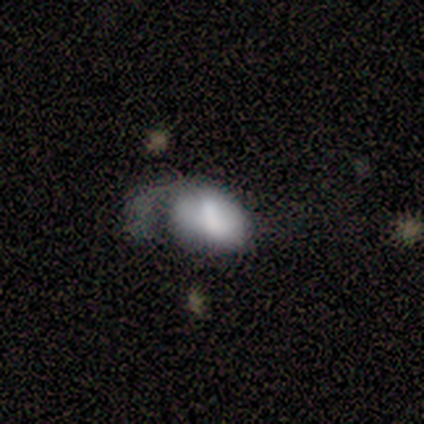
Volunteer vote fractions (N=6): smooth_or_featured: smooth (p=0.50) [tied with: featured or disk p=0.50]
how_rounded: in between (p=0.67) [alt: cigar-shaped p=0.33]
merging: major disturbance (p=0.50) [alt: none p=0.33]